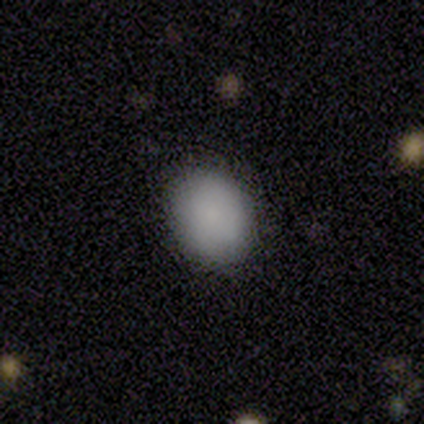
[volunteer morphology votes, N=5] Volunteers were most divided on "how rounded": in between: 60%, round: 40%, cigar-shaped: 0%. More confident: smooth or featured — smooth (100%); merging — none (100%).